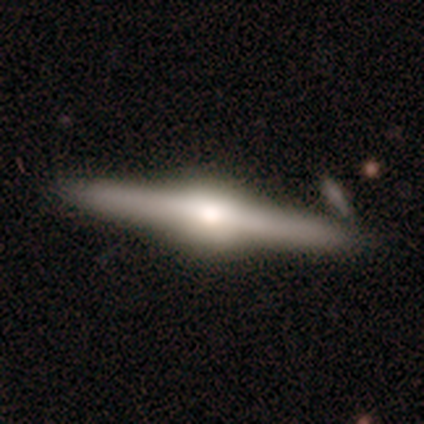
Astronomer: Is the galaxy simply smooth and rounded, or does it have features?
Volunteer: featured or disk — 95%.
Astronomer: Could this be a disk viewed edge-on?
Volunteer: yes — 97%.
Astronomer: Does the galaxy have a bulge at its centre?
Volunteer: rounded — 89%.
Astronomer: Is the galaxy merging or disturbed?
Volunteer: none — 85%.